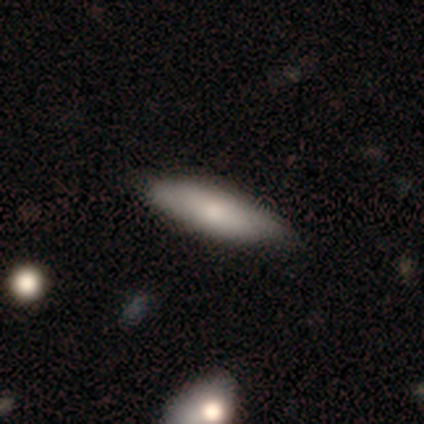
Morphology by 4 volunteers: Smooth or featured? 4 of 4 (100%) said smooth. How rounded? 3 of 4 (75%) said in between. Merging? 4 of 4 (100%) said none.